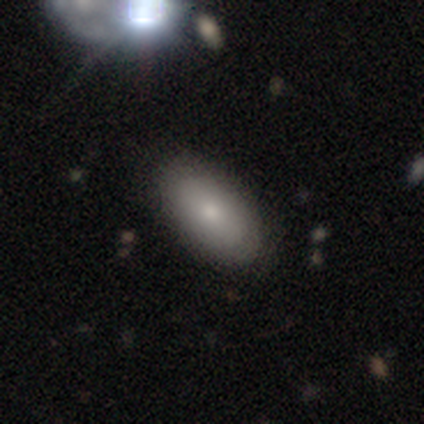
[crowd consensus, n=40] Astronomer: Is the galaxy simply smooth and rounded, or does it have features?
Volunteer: smooth — 80%.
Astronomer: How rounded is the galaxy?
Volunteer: in between — 91%.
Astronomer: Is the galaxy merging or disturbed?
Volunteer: none — 54%.